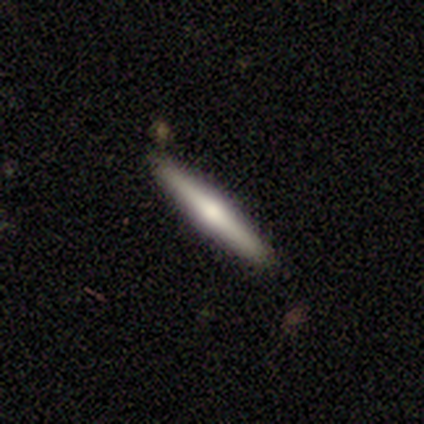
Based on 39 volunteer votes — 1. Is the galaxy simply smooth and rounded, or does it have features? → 69% featured or disk, 31% smooth, 0% star or artifact.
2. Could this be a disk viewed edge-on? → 100% yes, 0% no.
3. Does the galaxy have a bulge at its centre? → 89% rounded, 7% boxy, 4% none.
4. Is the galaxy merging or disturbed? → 95% none, 3% major disturbance, 3% merger, 0% minor disturbance.